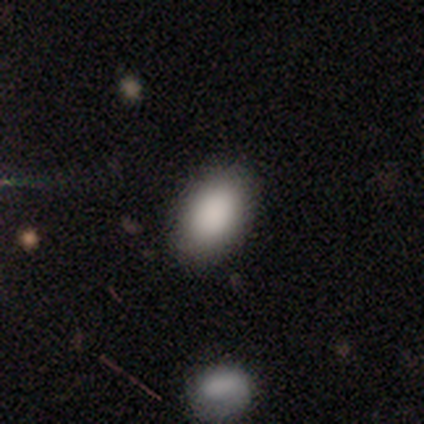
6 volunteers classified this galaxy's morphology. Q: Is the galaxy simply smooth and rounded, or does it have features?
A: smooth — 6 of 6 (100%).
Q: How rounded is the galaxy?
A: in between — 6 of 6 (100%).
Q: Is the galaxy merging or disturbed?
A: none — 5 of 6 (83%).